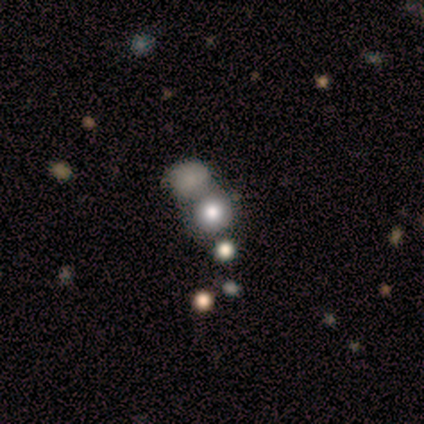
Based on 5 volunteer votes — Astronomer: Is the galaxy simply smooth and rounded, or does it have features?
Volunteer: smooth — 80%.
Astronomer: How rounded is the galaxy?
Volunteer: round — 100%.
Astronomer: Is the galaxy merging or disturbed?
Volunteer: merger — 60% (runner-up: none, 40%).